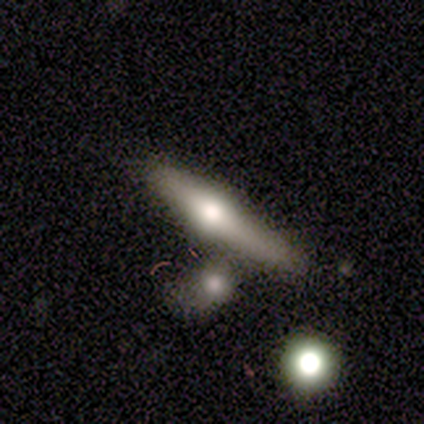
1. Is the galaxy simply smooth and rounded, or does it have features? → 60% featured or disk, 20% smooth, 20% star or artifact.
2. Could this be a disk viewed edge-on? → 100% yes, 0% no.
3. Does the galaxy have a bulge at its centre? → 100% rounded, 0% boxy, 0% none.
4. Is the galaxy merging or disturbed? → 50% none (tied), 50% minor disturbance (tied), 0% major disturbance, 0% merger.